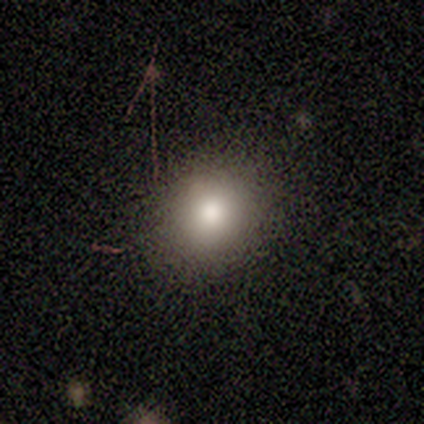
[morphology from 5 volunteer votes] smooth-or-featured: smooth: 60% | star or artifact: 40% | featured or disk: 0%
  how-rounded: round: 67% | in between: 33% | cigar-shaped: 0%
  merging: none: 100% | minor disturbance: 0% | major disturbance: 0% | merger: 0%